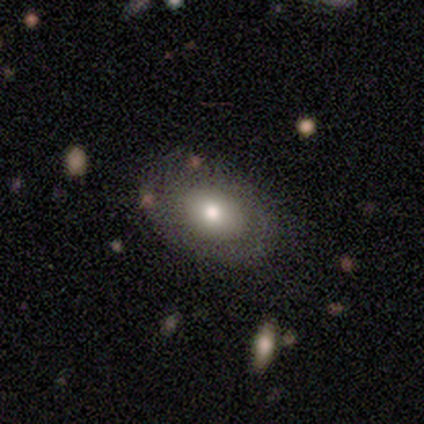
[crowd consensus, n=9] Overall: smooth (78%). How rounded: in between (100%). Merging: none (44%; minor disturbance 33%).